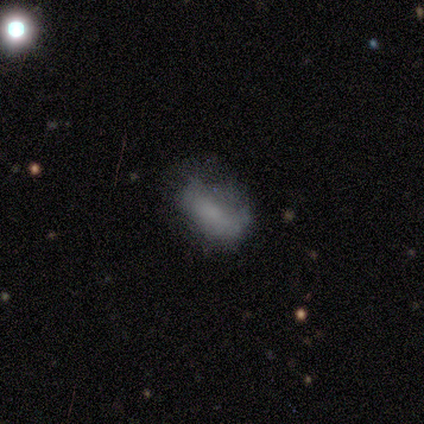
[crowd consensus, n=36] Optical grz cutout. It shows a featured or disk galaxy (50%) with no bar (88%), no spiral arms (76%) and no central bulge (71%). Merging: none (48%).